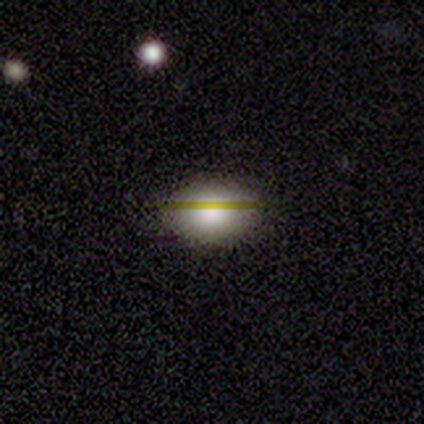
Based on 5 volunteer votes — smooth-or-featured: smooth: 80% | star or artifact: 20% | featured or disk: 0%
  how-rounded: round: 50% (tied) | in between: 50% (tied) | cigar-shaped: 0%
  merging: none: 75% | minor disturbance: 25% | major disturbance: 0% | merger: 0%